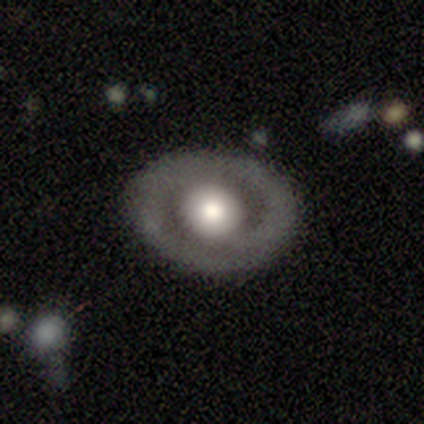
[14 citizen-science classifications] This appears to be a featured or disk galaxy (71%) with no bar (60%), 2 (83%) tight (67%) spiral arms (60%) and a large central bulge (70%). Merging: none (85%).